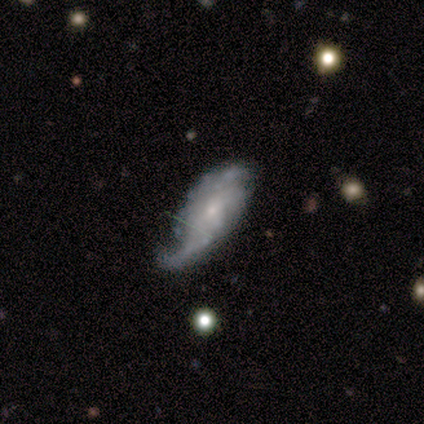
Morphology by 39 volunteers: featured or disk 64%, smooth 28%, star or artifact 8%. Down the decision tree: edge-on disk — no (100%); bar — no (72%); spiral arms — yes (76%); spiral arm count — can't tell (37%); spiral winding — medium (42%, tied with loose); bulge size — small (88%); merging — major disturbance (42%).